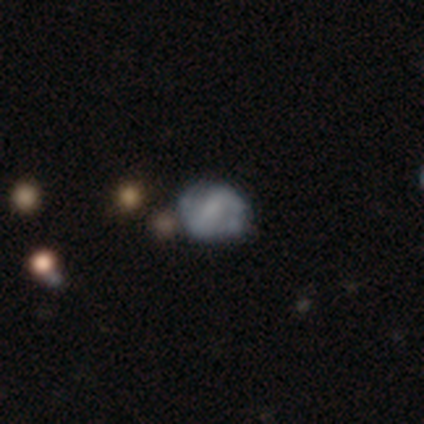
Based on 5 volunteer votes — This appears to be a featured or disk galaxy (100%) with a strong bar (40%, tied with weak), 2 (100%) loose (50%) spiral arms (80%) and no central bulge (60%). Merging: none (80%).